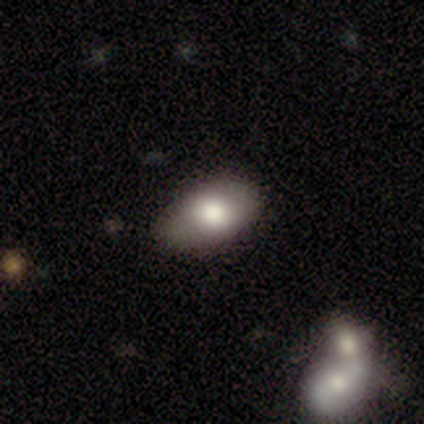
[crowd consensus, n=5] smooth-or-featured: smooth: 100% | featured or disk: 0% | star or artifact: 0%
  how-rounded: in between: 100% | round: 0% | cigar-shaped: 0%
  merging: none: 100% | minor disturbance: 0% | major disturbance: 0% | merger: 0%